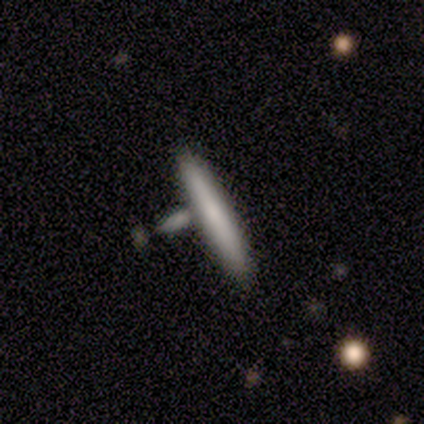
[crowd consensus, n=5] smooth-or-featured: smooth: 40% (tied) | featured or disk: 40% (tied) | star or artifact: 20%
  how-rounded: cigar-shaped: 100% | round: 0% | in between: 0%
  merging: none: 50% | minor disturbance: 25% | merger: 25% | major disturbance: 0%